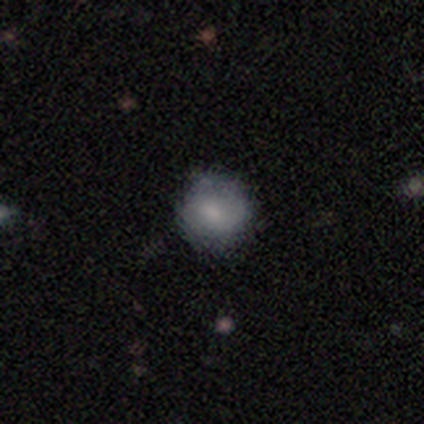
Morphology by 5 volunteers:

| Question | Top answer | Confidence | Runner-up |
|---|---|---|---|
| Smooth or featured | featured or disk | 80% | smooth (20%) |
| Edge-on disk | no | 100% | — |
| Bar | weak | 50% | tied: no (50%) |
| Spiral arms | yes | 100% | — |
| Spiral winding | tight | 50% | tied: loose (50%) |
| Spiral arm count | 2 | 75% | 1 (25%) |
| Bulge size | small | 75% | moderate (25%) |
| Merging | none | 40% | tied: minor disturbance (40%) |